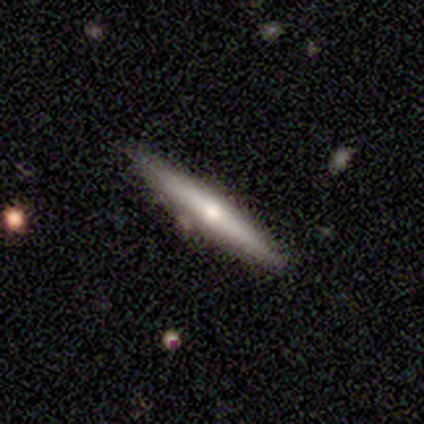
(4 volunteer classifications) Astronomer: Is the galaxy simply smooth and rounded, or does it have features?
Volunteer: featured or disk — 50%.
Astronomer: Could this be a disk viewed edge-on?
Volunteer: yes — 100%.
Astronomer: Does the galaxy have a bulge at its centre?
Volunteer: boxy — 100%.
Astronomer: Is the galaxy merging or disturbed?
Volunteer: minor disturbance — 67%.